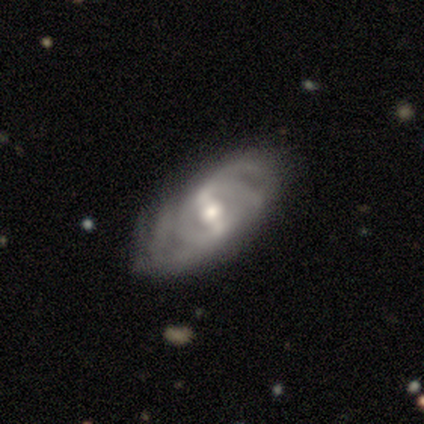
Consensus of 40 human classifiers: Smooth or featured?
  - featured or disk: 92% *
  - smooth: 5%
  - star or artifact: 2%
Edge-on disk?
  - no: 95% *
  - yes: 5%
Bar?
  - strong: 71% *
  - weak: 20%
  - no: 9%
Spiral arms?
  - yes: 97% *
  - no: 3%
Spiral winding?
  - tight: 50% *
  - medium: 44%
  - loose: 6%
Spiral arm count?
  - 2: 38% *
  - can't tell: 35%
  - 4: 12%
  - more than 4: 9%
  - 3: 6%
  - 1: 0%
Bulge size?
  - moderate: 80% *
  - large: 9%
  - small: 9%
  - dominant: 3%
  - none: 0%
Merging?
  - none: 69% *
  - minor disturbance: 21%
  - major disturbance: 8%
  - merger: 3%